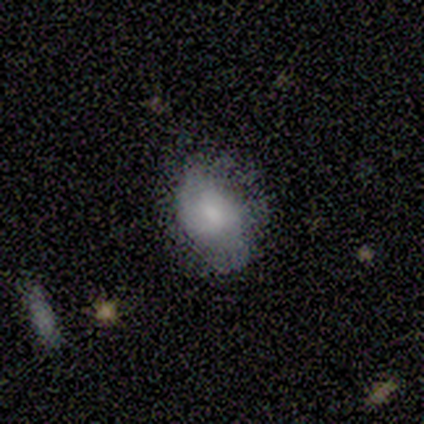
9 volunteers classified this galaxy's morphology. type=smooth (78%); roundness=round (71%); merging=minor disturbance (67%).